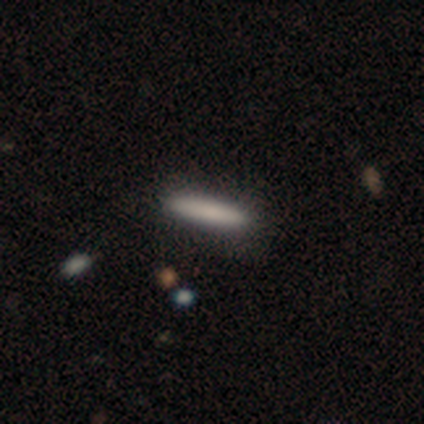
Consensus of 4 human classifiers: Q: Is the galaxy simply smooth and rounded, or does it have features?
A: smooth — 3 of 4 (75%).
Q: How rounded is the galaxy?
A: cigar-shaped — 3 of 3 (100%).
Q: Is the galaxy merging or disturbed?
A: none — 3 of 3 (100%).